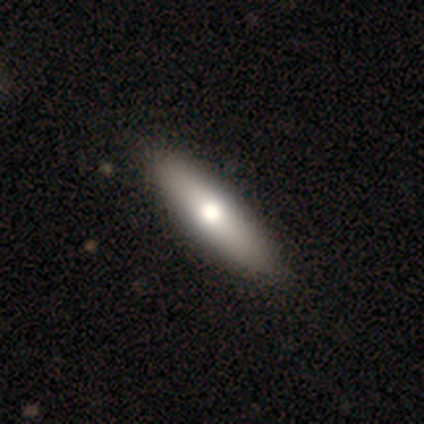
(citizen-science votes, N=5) smooth_or_featured: featured or disk (p=0.80) [alt: smooth p=0.20]
disk_edge_on: yes (p=0.75) [alt: no p=0.25]
edge_on_bulge: rounded (p=1.00)
merging: none (p=1.00)